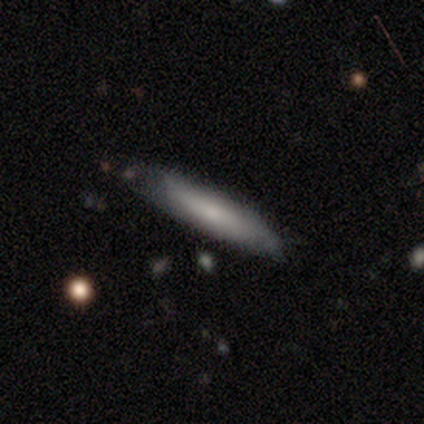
smooth_or_featured: smooth (p=0.67) [alt: featured or disk p=0.21]
how_rounded: cigar-shaped (p=0.77) [alt: in between p=0.23]
merging: none (p=0.65) [alt: minor disturbance p=0.32]